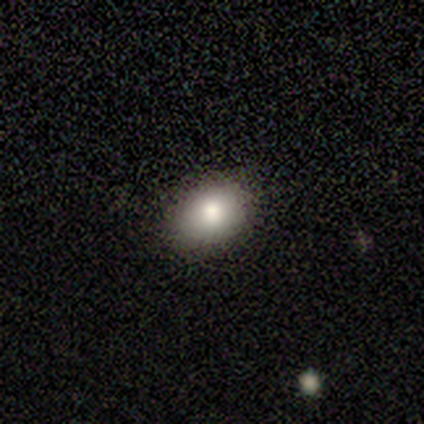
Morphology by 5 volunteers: This appears to be a smooth galaxy with no disk features (80%) that is in between round and cigar-shaped (75%). Merging: none (80%).